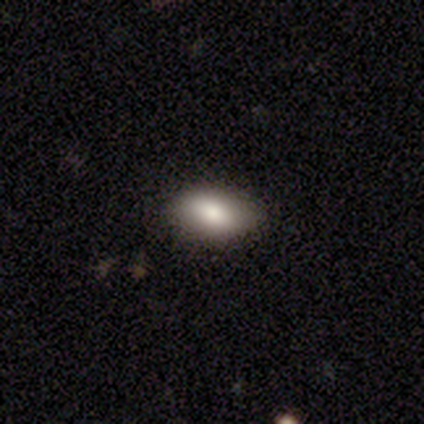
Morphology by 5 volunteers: This appears to be a smooth galaxy with no disk features (80%) that is in between round and cigar-shaped (100%). Merging: none (100%).